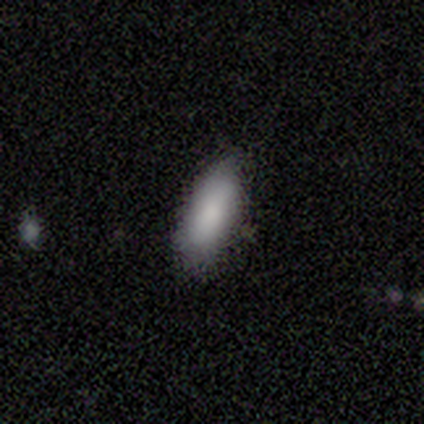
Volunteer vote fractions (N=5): A smooth galaxy with no disk features (60%) that is in between round and cigar-shaped (100%).

Vote fractions:
- Smooth or featured? smooth: 60% / featured or disk: 40% / star or artifact: 0%
- How rounded? in between: 100% / round: 0% / cigar-shaped: 0%
- Merging? none: 80% / minor disturbance: 20% / major disturbance: 0% / merger: 0%